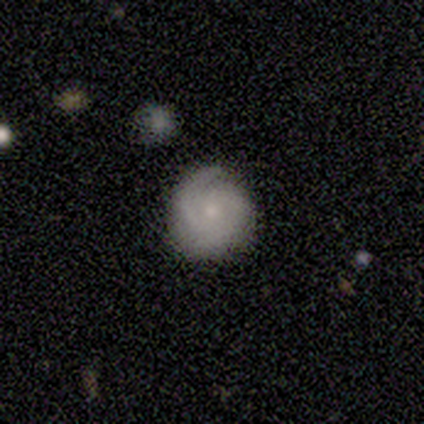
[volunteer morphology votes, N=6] This appears to be a featured or disk galaxy (67%) with a weak bar (50%, tied with no), 2 (75%) tight (50%, tied with medium) spiral arms (100%) and a small central bulge (75%). Merging: none (67%).